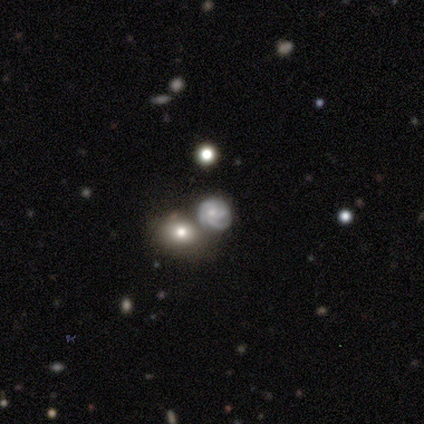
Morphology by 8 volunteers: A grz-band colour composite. It shows a featured or disk galaxy (38%, tied with star or artifact) with no bar (67%), 3 (67%) tight (67%) spiral arms (100%) and no central bulge (67%). Merging: none (60%).